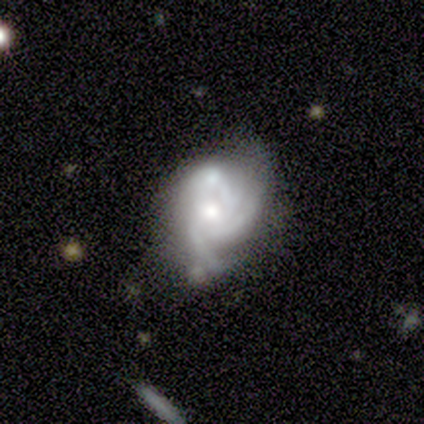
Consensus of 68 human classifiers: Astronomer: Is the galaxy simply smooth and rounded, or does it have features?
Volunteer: featured or disk — 79%.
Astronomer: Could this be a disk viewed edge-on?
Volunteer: no — 100%.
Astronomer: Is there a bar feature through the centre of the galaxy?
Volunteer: no — 85%.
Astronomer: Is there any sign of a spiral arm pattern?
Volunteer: yes — 89%.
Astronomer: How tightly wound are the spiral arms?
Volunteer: medium — 44% (runner-up: tight, 38%).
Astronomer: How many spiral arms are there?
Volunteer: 3 — 54% (runner-up: can't tell, 29%).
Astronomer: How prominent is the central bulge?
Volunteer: moderate — 70%.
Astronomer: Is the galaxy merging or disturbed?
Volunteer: minor disturbance — 28%, tied with merger at 28%.